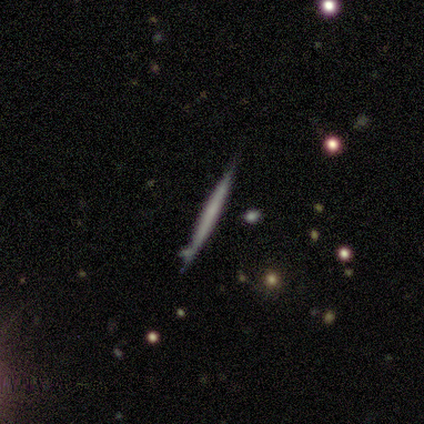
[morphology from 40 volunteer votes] type=featured or disk (55%); edge-on=yes (95%); edge-on bulge=none (95%); merging=none (92%).